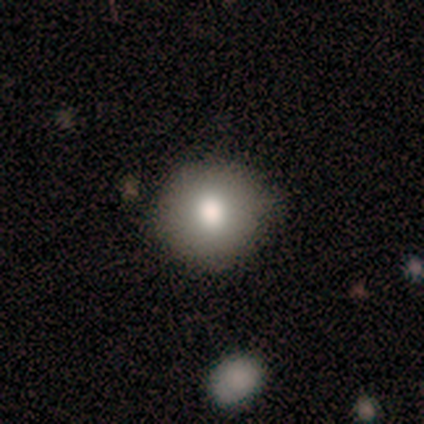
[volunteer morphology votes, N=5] Overall: smooth (100%). How rounded: round (60%; in between 40%). Merging: none (80%).